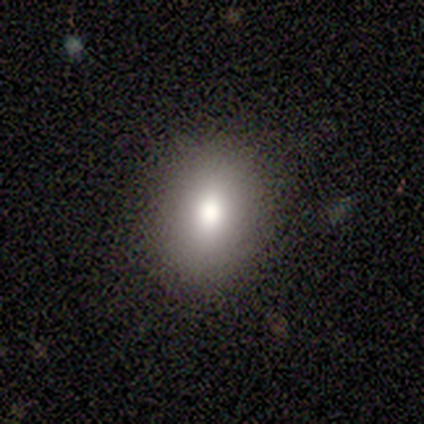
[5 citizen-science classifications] Volunteers were most divided on "how rounded": in between: 60%, round: 40%, cigar-shaped: 0%. More confident: smooth or featured — smooth (100%); merging — none (100%).